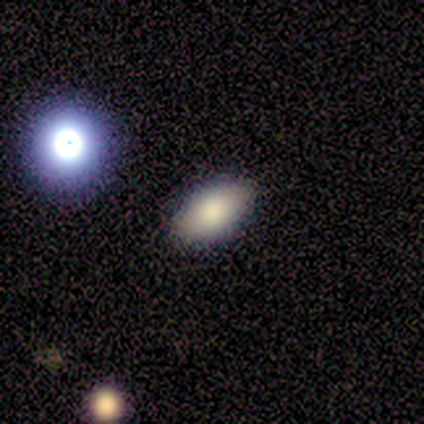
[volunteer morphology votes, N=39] A smooth galaxy with no disk features (67%) that is in between round and cigar-shaped (96%).

Vote fractions:
- Smooth or featured? smooth: 67% / featured or disk: 23% / star or artifact: 10%
- How rounded? in between: 96% / cigar-shaped: 4% / round: 0%
- Merging? none: 91% / minor disturbance: 3% / major disturbance: 3% / merger: 3%